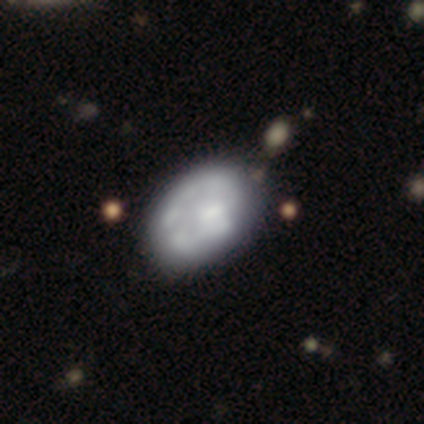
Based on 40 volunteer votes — Smooth or featured?
  - featured or disk: 57% *
  - smooth: 35%
  - star or artifact: 8%
Edge-on disk?
  - no: 100% *
  - yes: 0%
Bar?
  - no: 91% *
  - weak: 9%
  - strong: 0%
Spiral arms?
  - no: 74% *
  - yes: 26%
Bulge size?
  - moderate: 35% * (tied)
  - none: 35% * (tied)
  - small: 22%
  - dominant: 4%
  - large: 4%
Merging?
  - none: 30% *
  - major disturbance: 16%
  - merger: 16%
  - minor disturbance: 14%